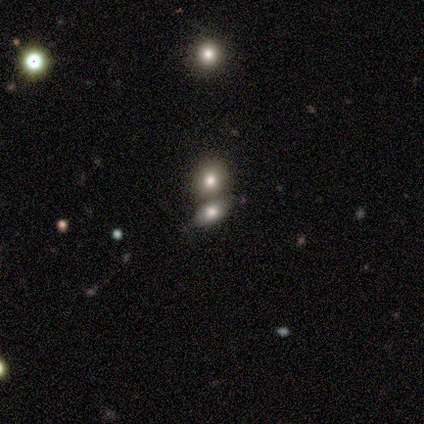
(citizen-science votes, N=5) Morphology: type=smooth (60%); roundness=round (100%); merging=none (67%).